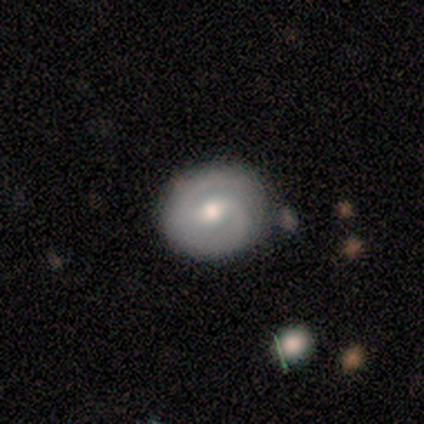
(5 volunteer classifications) Smooth or featured: featured or disk — 80% (star or artifact — 20%)
Edge-on disk: no — 100%
Bar: weak — 75% (strong — 25%)
Spiral arms: yes — 75% (no — 25%)
Spiral winding: medium — 67% (tight — 33%)
Spiral arm count: 2 — 100%
Bulge size: moderate — 75% (small — 25%)
Merging: none — 75% (major disturbance — 25%)